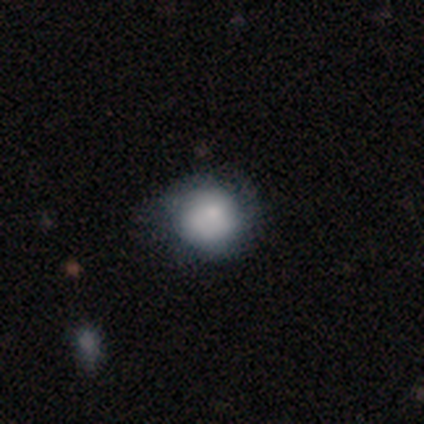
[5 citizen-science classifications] Smooth or featured? smooth (100%)
How rounded? round (80%)
Merging? minor disturbance (60%)